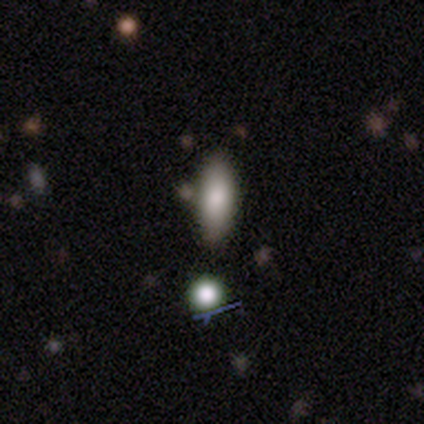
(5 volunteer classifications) Smooth or featured: smooth — 80% (star or artifact — 20%)
How rounded: in between — 75% (cigar-shaped — 25%)
Merging: none — 100%